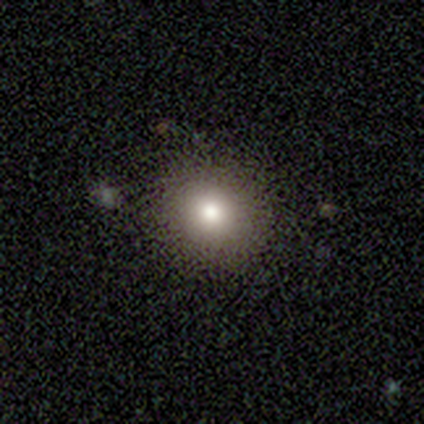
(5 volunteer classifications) This appears to be a smooth galaxy with no disk features (60%) that is round (67%). Merging: none (50%).